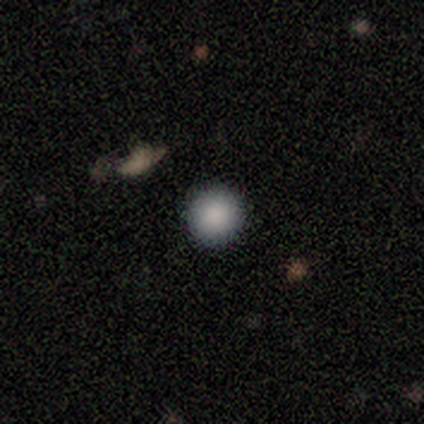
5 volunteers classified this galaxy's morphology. This is clearly a smooth galaxy (100%). How rounded: clearly round (100%). Merging: clearly none (100%).